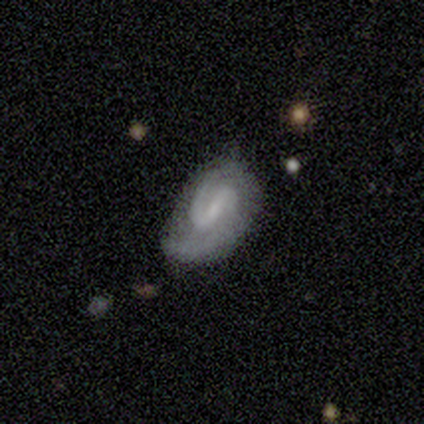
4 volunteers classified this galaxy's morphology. Smooth or featured?
  - featured or disk: 75% *
  - star or artifact: 25%
  - smooth: 0%
Edge-on disk?
  - no: 100% *
  - yes: 0%
Bar?
  - strong: 67% *
  - weak: 33%
  - no: 0%
Spiral arms?
  - yes: 100% *
  - no: 0%
Spiral winding?
  - medium: 100% *
  - tight: 0%
  - loose: 0%
Spiral arm count?
  - 1: 67% *
  - 2: 33%
  - 3: 0%
  - 4: 0%
  - more than 4: 0%
  - can't tell: 0%
Bulge size?
  - moderate: 33% * (tied)
  - small: 33% * (tied)
  - none: 33% * (tied)
  - dominant: 0%
  - large: 0%
Merging?
  - none: 100% *
  - minor disturbance: 0%
  - major disturbance: 0%
  - merger: 0%